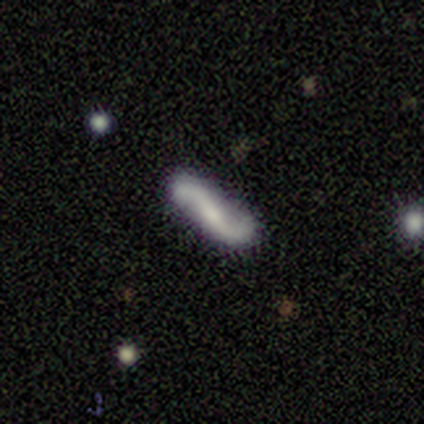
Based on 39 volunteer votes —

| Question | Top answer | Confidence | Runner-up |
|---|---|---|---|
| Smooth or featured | featured or disk | 90% | smooth (8%) |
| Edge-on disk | no | 86% | yes (14%) |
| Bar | strong | 33% | tied: weak (33%), no (33%) |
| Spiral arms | yes | 93% | no (7%) |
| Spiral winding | loose | 93% | medium (7%) |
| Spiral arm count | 2 | 100% | — |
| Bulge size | small | 57% | moderate (23%) |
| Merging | none | 79% | minor disturbance (18%) |